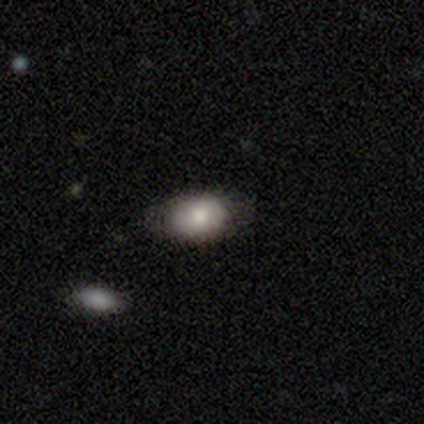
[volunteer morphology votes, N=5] This appears to be a smooth galaxy with no disk features (100%) that is in between round and cigar-shaped (80%). Merging: none (100%).